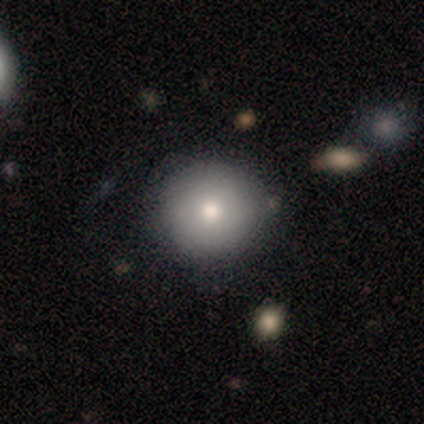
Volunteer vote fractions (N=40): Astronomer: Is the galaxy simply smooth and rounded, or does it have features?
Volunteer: smooth — 70%.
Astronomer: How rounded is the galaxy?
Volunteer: round — 93%.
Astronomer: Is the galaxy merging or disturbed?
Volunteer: none — 84%.